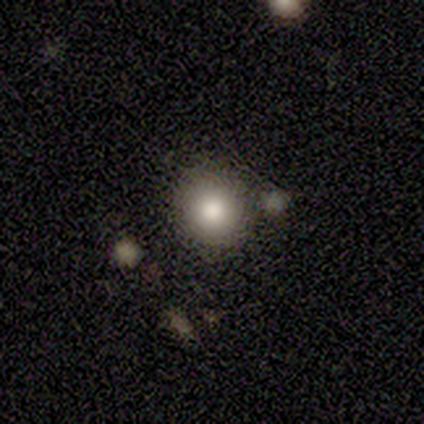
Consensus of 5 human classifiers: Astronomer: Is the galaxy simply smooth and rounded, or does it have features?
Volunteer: smooth — 60% (runner-up: star or artifact, 40%).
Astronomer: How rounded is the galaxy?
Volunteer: in between — 67%.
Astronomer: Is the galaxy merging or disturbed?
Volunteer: none — 67%.